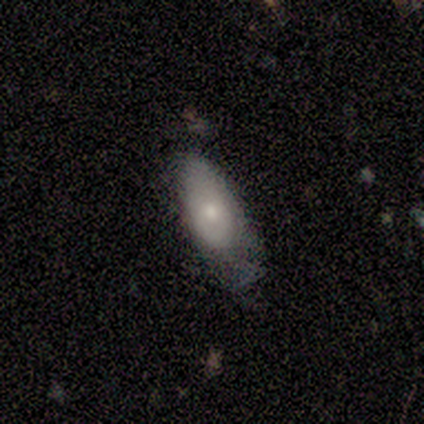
smooth-or-featured: smooth: 60% | featured or disk: 40% | star or artifact: 0%
  how-rounded: in between: 67% | cigar-shaped: 33% | round: 0%
  merging: none: 40% | minor disturbance: 20% | major disturbance: 20% | merger: 20%